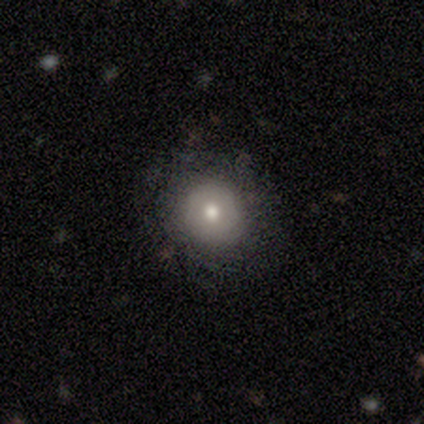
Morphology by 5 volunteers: smooth 40% (tied), featured or disk 40% (tied), star or artifact 20%. Down the decision tree: how rounded — round (100%); merging — none (75%).